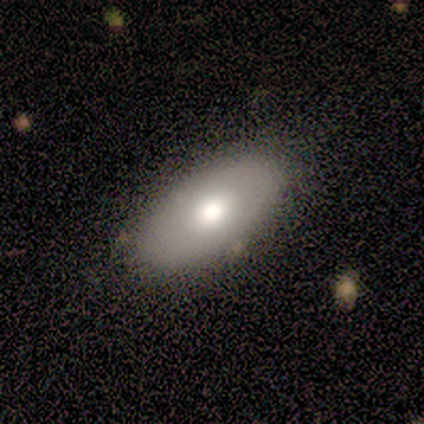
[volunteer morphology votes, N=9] smooth_or_featured: smooth (p=0.67) [alt: featured or disk p=0.22]
how_rounded: in between (p=0.83) [alt: cigar-shaped p=0.17]
merging: none (p=0.62) [alt: minor disturbance p=0.25]